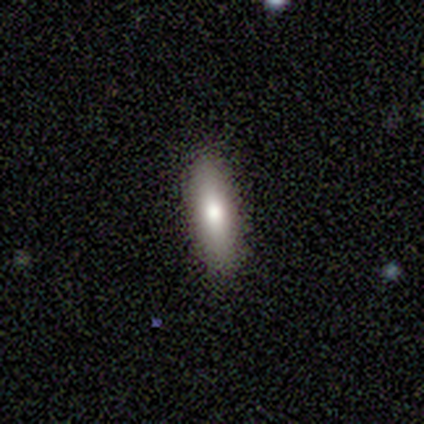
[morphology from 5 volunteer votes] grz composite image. It shows a smooth galaxy with no disk features (100%) that is cigar-shaped (80%). Merging: none (100%).